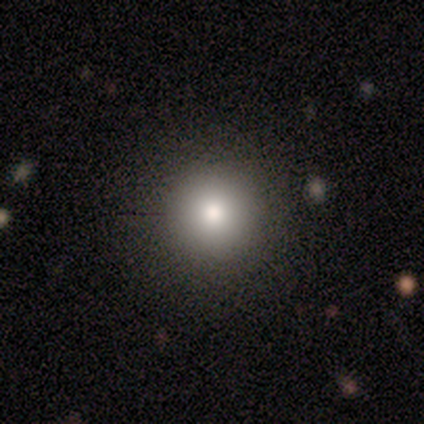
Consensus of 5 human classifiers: A smooth galaxy with no disk features (100%) that is round (100%).

Vote fractions:
- Smooth or featured? smooth: 100% / featured or disk: 0% / star or artifact: 0%
- How rounded? round: 100% / in between: 0% / cigar-shaped: 0%
- Merging? none: 100% / minor disturbance: 0% / major disturbance: 0% / merger: 0%